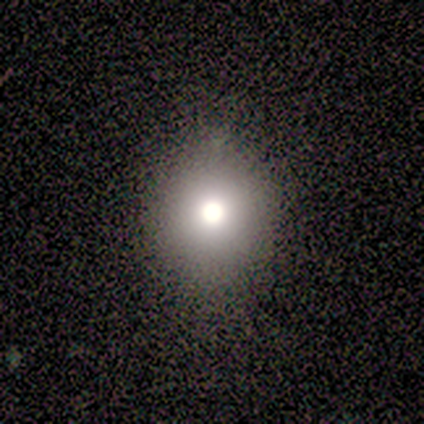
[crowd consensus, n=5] A smooth galaxy with no disk features (80%) that is round (100%). Merging: none (75%).